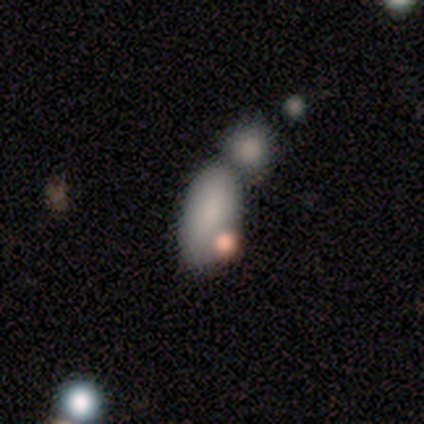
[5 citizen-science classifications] This is clearly a smooth galaxy (80%). How rounded: clearly in between (100%). Merging: likely merger (75%).